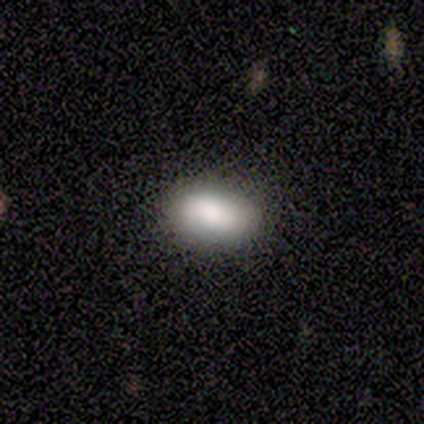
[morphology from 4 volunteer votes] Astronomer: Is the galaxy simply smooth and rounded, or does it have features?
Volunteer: smooth — 100%.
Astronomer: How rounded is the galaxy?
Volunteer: in between — 100%.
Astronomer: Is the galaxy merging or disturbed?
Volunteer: none — 100%.